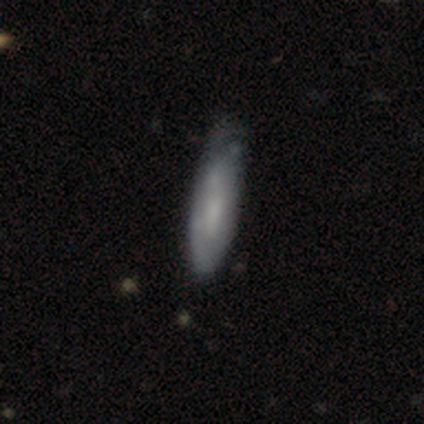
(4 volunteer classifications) Smooth or featured: smooth — 50% (tied with featured or disk — 50%)
How rounded: in between — 50% (tied with cigar-shaped — 50%)
Merging: none — 50% (tied with minor disturbance — 50%)